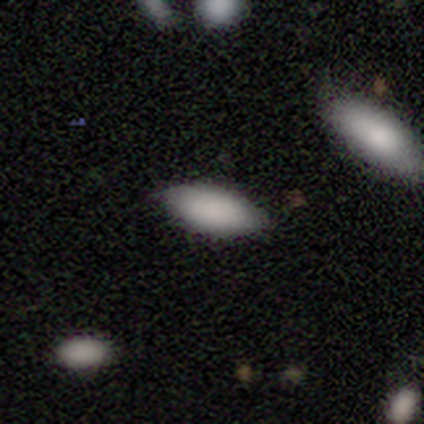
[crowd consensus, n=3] Volunteers were most divided on "merging": none: 67%, merger: 33%, minor disturbance: 0%, major disturbance: 0%. More confident: smooth or featured — smooth (100%); how rounded — in between (100%).